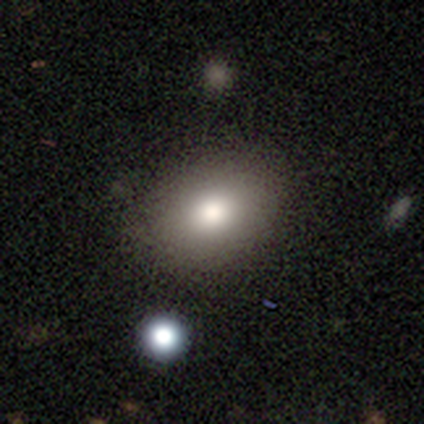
Smooth or featured?
  - smooth: 87% *
  - star or artifact: 11%
  - featured or disk: 3%
How rounded?
  - in between: 79% *
  - round: 21%
  - cigar-shaped: 0%
Merging?
  - none: 71% *
  - minor disturbance: 3%
  - major disturbance: 0%
  - merger: 0%